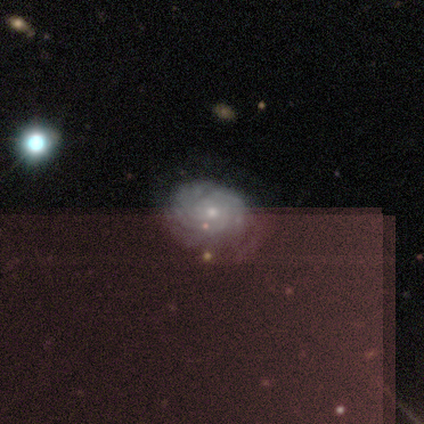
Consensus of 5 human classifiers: Q: Smooth or featured?
A: featured or disk (80%); runner-up: star or artifact (20%)
Q: Edge-on disk?
A: no (100%)
Q: Bar?
A: no (75%); runner-up: weak (25%)
Q: Spiral arms?
A: yes (100%)
Q: Spiral winding?
A: tight (100%)
Q: Spiral arm count?
A: can't tell (50%); runner-up: 3 (25%)
Q: Bulge size?
A: small (75%); runner-up: moderate (25%)
Q: Merging?
A: none (75%); runner-up: minor disturbance (25%)